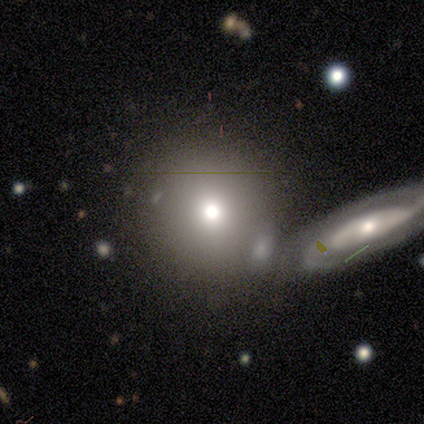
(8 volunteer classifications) smooth_or_featured: smooth (p=0.62) [alt: featured or disk p=0.38]
how_rounded: round (p=0.80) [alt: in between p=0.20]
merging: none (p=0.62) [alt: minor disturbance p=0.38]